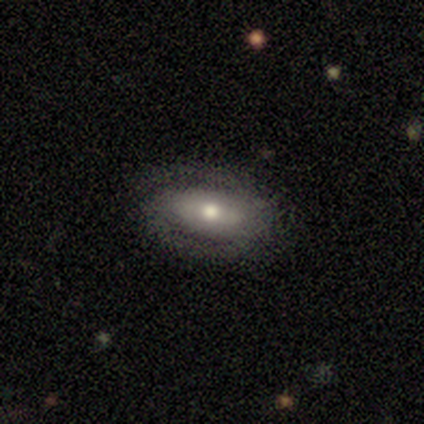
Smooth or featured? 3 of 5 (60%) said featured or disk. Edge-on disk? 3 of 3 (100%) said no. Bar? 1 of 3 (33%, tied with weak and no) said strong. Spiral arms? 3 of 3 (100%) said yes. Spiral winding? 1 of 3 (33%, tied with medium and loose) said tight. Spiral arm count? 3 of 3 (100%) said 2. Bulge size? 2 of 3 (67%) said moderate. Merging? 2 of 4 (50%) said none.